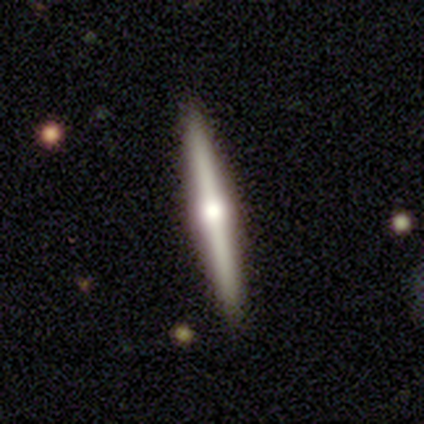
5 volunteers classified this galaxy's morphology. A featured or disk galaxy (80%) viewed edge-on (100%) with a rounded central bulge (100%).

Vote fractions:
- Smooth or featured? featured or disk: 80% / smooth: 20% / star or artifact: 0%
- Edge-on disk? yes: 100% / no: 0%
- Edge-on bulge? rounded: 100% / boxy: 0% / none: 0%
- Merging? none: 80% / minor disturbance: 20% / major disturbance: 0% / merger: 0%